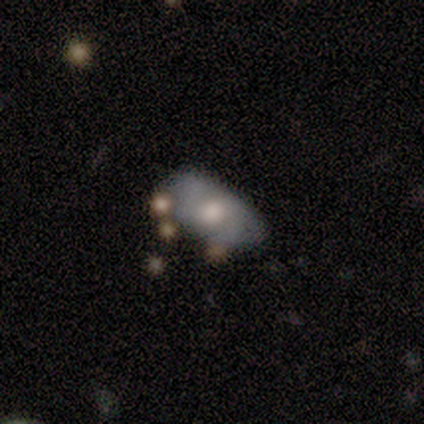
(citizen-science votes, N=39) smooth-or-featured: smooth: 54% | featured or disk: 38% | star or artifact: 8%
  how-rounded: in between: 86% | round: 14% | cigar-shaped: 0%
  merging: none: 44% | minor disturbance: 22% | major disturbance: 17% | merger: 17%